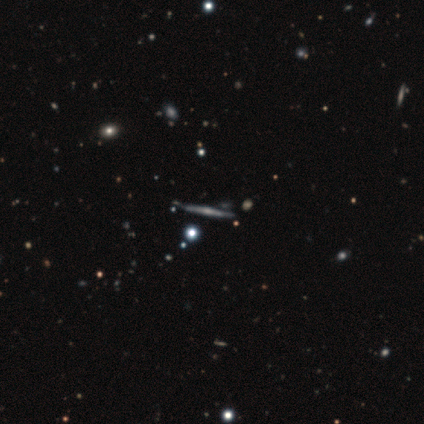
This appears to be a featured or disk galaxy (82%) viewed edge-on (95%) with a rounded central bulge (80%). Merging: none (83%).